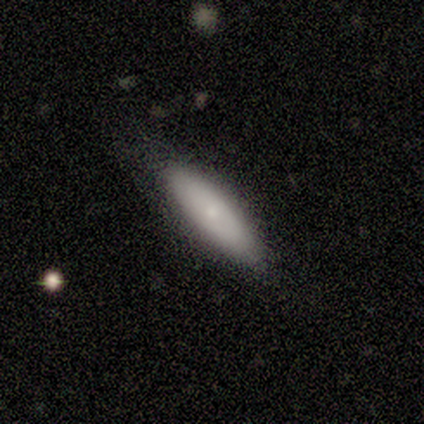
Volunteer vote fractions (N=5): smooth-or-featured: featured or disk: 60% | smooth: 40% | star or artifact: 0%
  disk-edge-on: no: 100% | yes: 0%
    bar: no: 67% | weak: 33% | strong: 0%
    has-spiral-arms: no: 100% | yes: 0%
    bulge-size: small: 100% | dominant: 0% | large: 0% | moderate: 0% | none: 0%
  merging: none: 100% | minor disturbance: 0% | major disturbance: 0% | merger: 0%